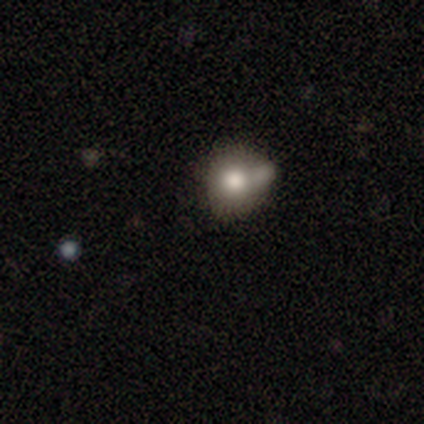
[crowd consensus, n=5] smooth 80%, featured or disk 20%, star or artifact 0%. Down the decision tree: how rounded — round (75%); merging — merger (60%).